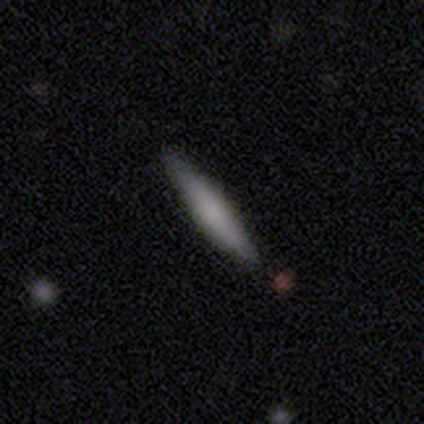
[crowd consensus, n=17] Smooth or featured? 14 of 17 (82%) said smooth. How rounded? 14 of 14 (100%) said cigar-shaped. Merging? 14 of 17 (82%) said none.